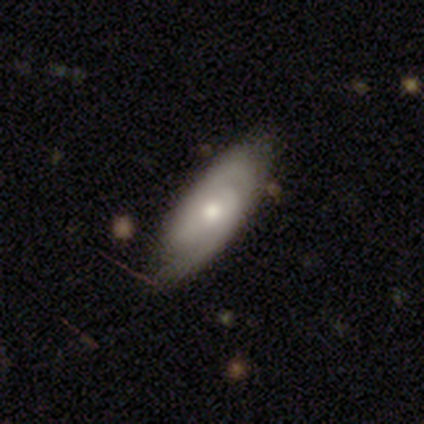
smooth-or-featured: featured or disk: 100% | smooth: 0% | star or artifact: 0%
  disk-edge-on: no: 100% | yes: 0%
    bar: no: 100% | strong: 0% | weak: 0%
    has-spiral-arms: yes: 100% | no: 0%
      spiral-winding: tight: 67% | medium: 33% | loose: 0%
      spiral-arm-count: 2: 67% | can't tell: 33% | 1: 0% | 3: 0% | 4: 0% | more than 4: 0%
    bulge-size: large: 33% (tied) | moderate: 33% (tied) | small: 33% (tied) | dominant: 0% | none: 0%
  merging: none: 100% | minor disturbance: 0% | major disturbance: 0% | merger: 0%